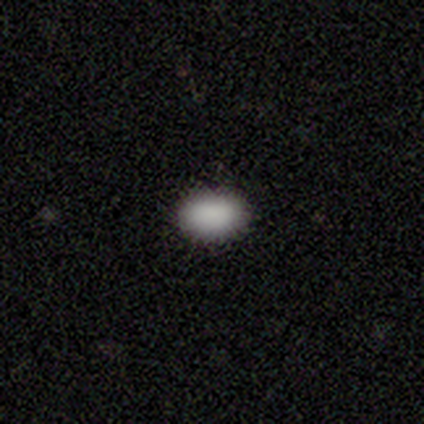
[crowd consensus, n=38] Q: Smooth or featured?
A: smooth (87%); runner-up: star or artifact (8%)
Q: How rounded?
A: in between (97%); runner-up: cigar-shaped (3%)
Q: Merging?
A: none (86%); runner-up: minor disturbance (11%)